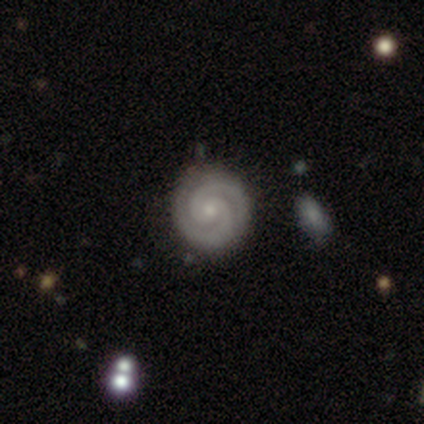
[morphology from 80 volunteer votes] Q: Smooth or featured?
A: featured or disk (91%); runner-up: smooth (5%)
Q: Edge-on disk?
A: no (100%)
Q: Bar?
A: no (77%); runner-up: weak (19%)
Q: Spiral arms?
A: yes (99%); runner-up: no (1%)
Q: Spiral winding?
A: tight (89%); runner-up: medium (11%)
Q: Spiral arm count?
A: 2 (99%); runner-up: 3 (1%)
Q: Bulge size?
A: small (63%); runner-up: moderate (34%)
Q: Merging?
A: none (88%); runner-up: minor disturbance (9%)